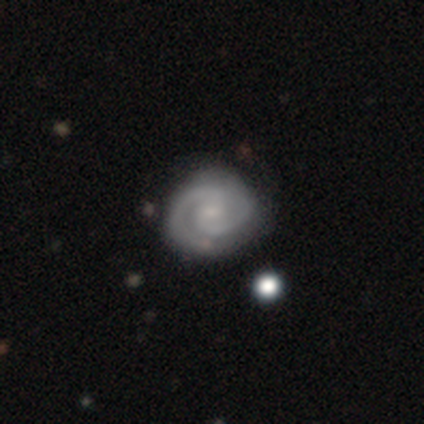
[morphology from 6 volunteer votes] smooth-or-featured: featured or disk: 100% | smooth: 0% | star or artifact: 0%
  disk-edge-on: no: 83% | yes: 17%
    bar: weak: 60% | no: 40% | strong: 0%
    has-spiral-arms: yes: 100% | no: 0%
      spiral-winding: tight: 80% | medium: 20% | loose: 0%
      spiral-arm-count: 2: 80% | can't tell: 20% | 1: 0% | 3: 0% | 4: 0% | more than 4: 0%
    bulge-size: none: 60% | small: 40% | dominant: 0% | large: 0% | moderate: 0%
  merging: none: 67% | minor disturbance: 33% | major disturbance: 0% | merger: 0%